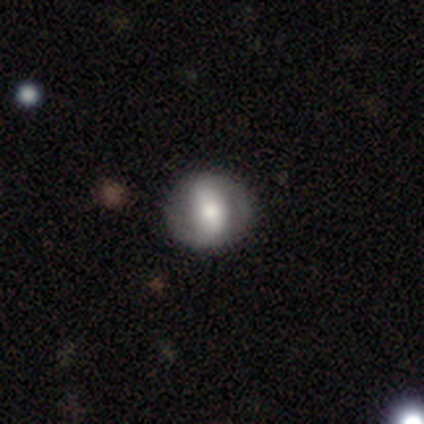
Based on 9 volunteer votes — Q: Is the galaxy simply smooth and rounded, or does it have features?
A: smooth — 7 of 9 (78%).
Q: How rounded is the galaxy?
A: round — 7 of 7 (100%).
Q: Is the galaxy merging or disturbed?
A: none — 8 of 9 (89%).